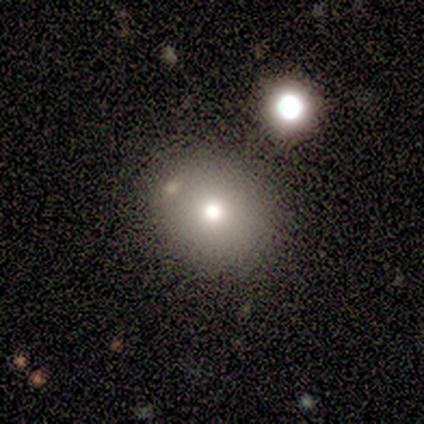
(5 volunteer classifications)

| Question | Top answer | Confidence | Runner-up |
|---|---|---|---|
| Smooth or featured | smooth | 100% | — |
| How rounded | in between | 60% | round (40%) |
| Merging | none | 60% | minor disturbance (20%) |